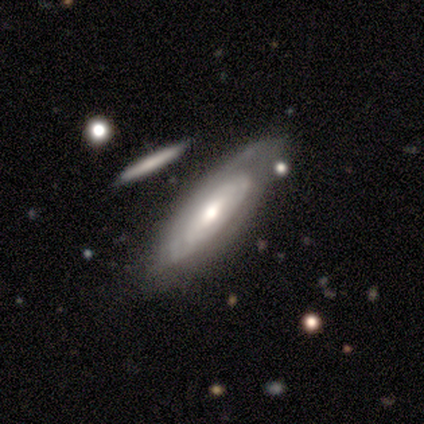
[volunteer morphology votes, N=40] This is clearly a featured or disk galaxy (80%). It is likely not viewed edge-on (69%). Bar: likely no (77%). Spiral arm pattern: clearly yes (91%). Spiral arm count: likely can't tell (75%). Spiral winding: possibly tight (55%). Central bulge: likely moderate (64%). Merging: likely none (69%).